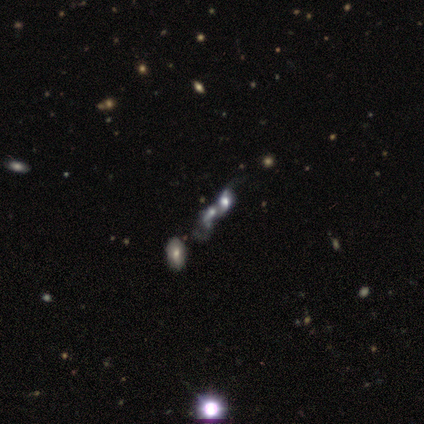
Smooth or featured? featured or disk (56%)
Edge-on disk? no (100%)
Bar? no (80%)
Spiral arms? yes (60%)
Spiral winding? loose (100%)
Spiral arm count? 1 (33%, tied with 2 and can't tell)
Bulge size? moderate (60%)
Merging? merger (100%)